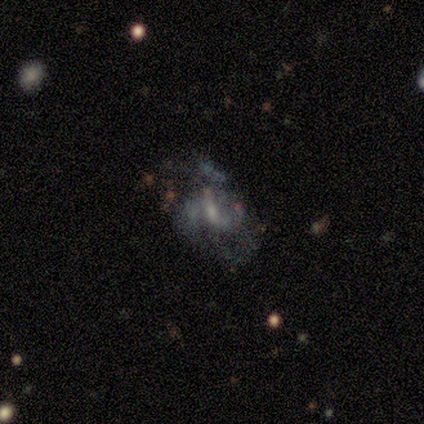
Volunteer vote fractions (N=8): smooth-or-featured: featured or disk: 75% | smooth: 12% | star or artifact: 12%
  disk-edge-on: no: 100% | yes: 0%
    bar: weak: 67% | strong: 17% | no: 17%
    has-spiral-arms: yes: 67% | no: 33%
      spiral-winding: medium: 75% | loose: 25% | tight: 0%
      spiral-arm-count: can't tell: 50% | 2: 25% | 3: 25% | 1: 0% | 4: 0% | more than 4: 0%
    bulge-size: small: 83% | moderate: 17% | dominant: 0% | large: 0% | none: 0%
  merging: major disturbance: 71% | none: 29% | minor disturbance: 0% | merger: 0%